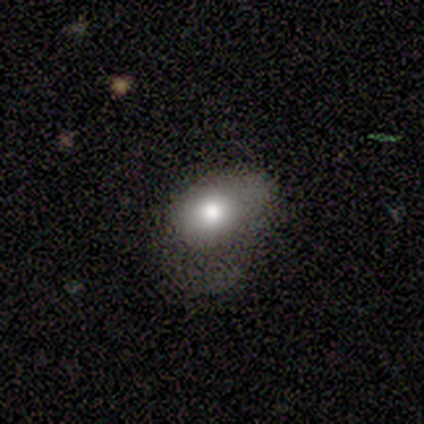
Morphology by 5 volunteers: Smooth or featured: smooth — 60% (featured or disk — 40%)
How rounded: in between — 67% (round — 33%)
Merging: none — 40% (tied with minor disturbance — 40%)